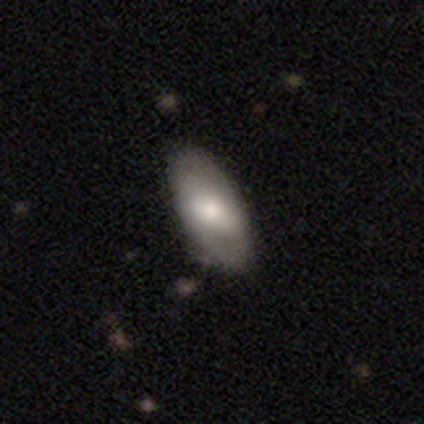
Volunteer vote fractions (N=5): Smooth or featured?
  - smooth: 40% * (tied)
  - featured or disk: 40% * (tied)
  - star or artifact: 20%
How rounded?
  - in between: 100% *
  - round: 0%
  - cigar-shaped: 0%
Merging?
  - none: 100% *
  - minor disturbance: 0%
  - major disturbance: 0%
  - merger: 0%